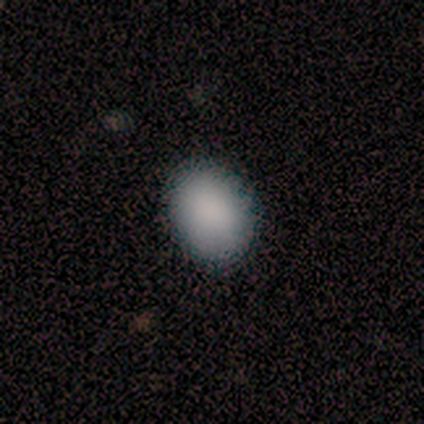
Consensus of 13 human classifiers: Overall: smooth (77%). How rounded: in between (70%; round 30%). Merging: none (92%).